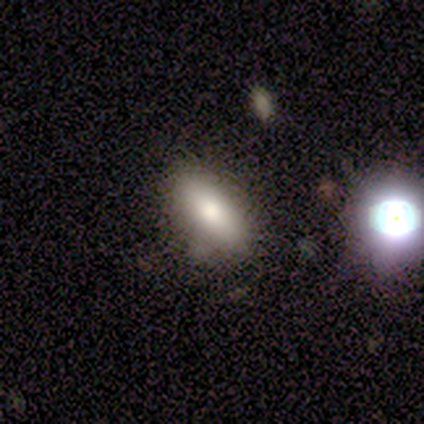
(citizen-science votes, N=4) smooth 50% (tied), star or artifact 50% (tied), featured or disk 0%. Down the decision tree: how rounded — in between (50%, tied with cigar-shaped); merging — none (50%, tied with minor disturbance).